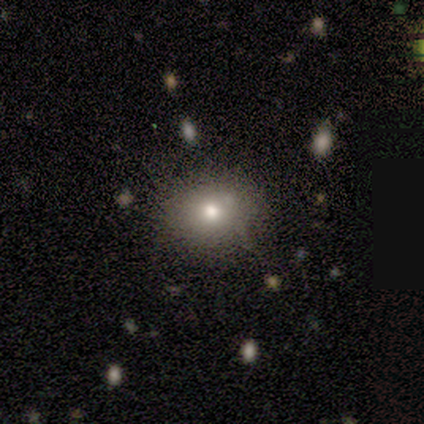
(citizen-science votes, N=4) Volunteers were most divided on "smooth or featured": smooth: 75%, star or artifact: 25%, featured or disk: 0%. More confident: how rounded — round (100%); merging — none (100%).